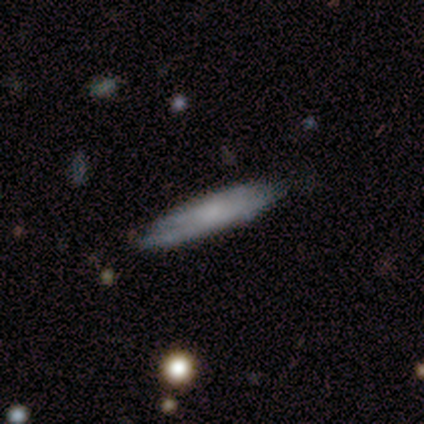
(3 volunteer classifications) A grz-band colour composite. It shows a smooth galaxy with no disk features (100%) that is cigar-shaped (100%). Merging: none (67%).